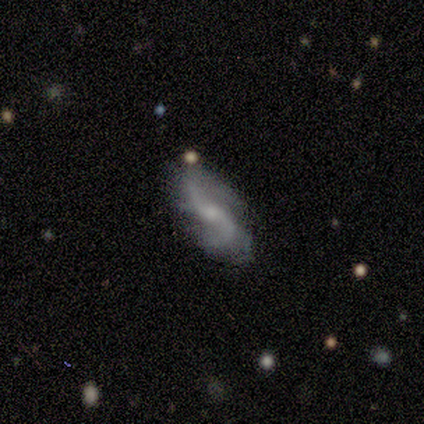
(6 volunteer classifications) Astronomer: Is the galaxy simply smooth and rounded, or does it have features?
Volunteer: featured or disk — 100%.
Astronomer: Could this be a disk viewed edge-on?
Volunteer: no — 100%.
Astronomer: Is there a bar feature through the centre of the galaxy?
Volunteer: weak — 83%.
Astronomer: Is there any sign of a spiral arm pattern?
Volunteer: yes — 83%.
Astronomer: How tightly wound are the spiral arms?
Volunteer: loose — 80%.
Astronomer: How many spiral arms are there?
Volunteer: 2 — 80%.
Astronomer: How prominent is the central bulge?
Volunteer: small — 67%.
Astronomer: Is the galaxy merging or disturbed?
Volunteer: none — 83%.